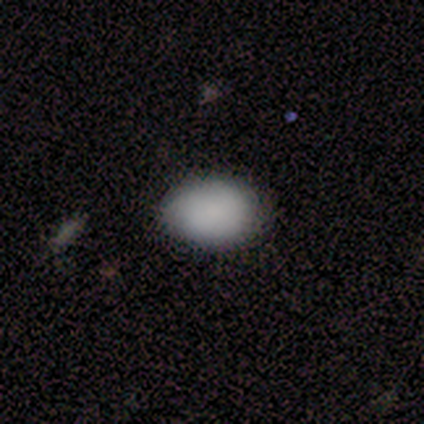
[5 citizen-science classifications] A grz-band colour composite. It shows a smooth galaxy with no disk features (80%) that is in between round and cigar-shaped (75%). Merging: none (100%).